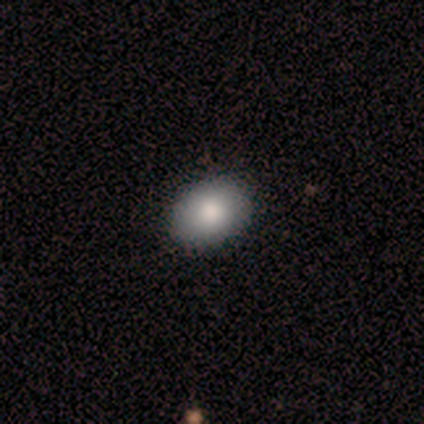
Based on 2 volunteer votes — Smooth or featured: smooth — 50% (tied with featured or disk — 50%)
How rounded: in between — 100%
Merging: none — 100%